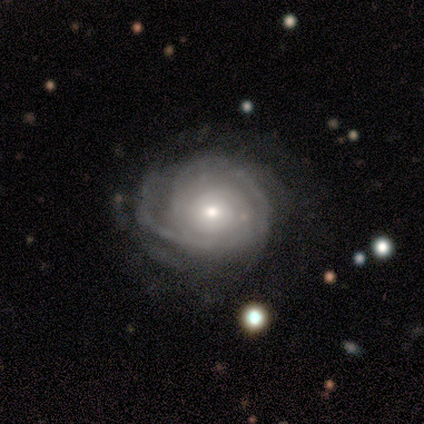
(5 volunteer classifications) Morphology: type=featured or disk (80%); edge-on=no (100%); bar=weak (50%, tied with no); spiral arms=yes (100%); winding=tight (50%, tied with medium); arm count=can't tell (100%); bulge=small (75%); merging=minor disturbance (40%, tied with major disturbance).